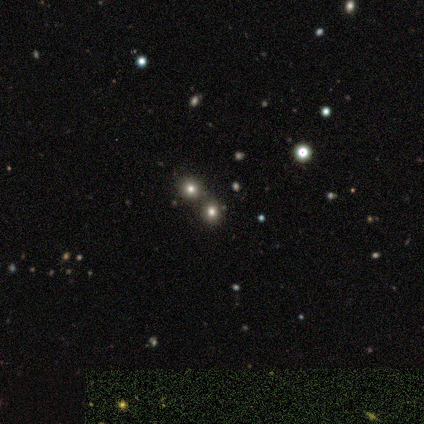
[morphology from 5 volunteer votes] Smooth or featured? 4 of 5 (80%) said star or artifact.